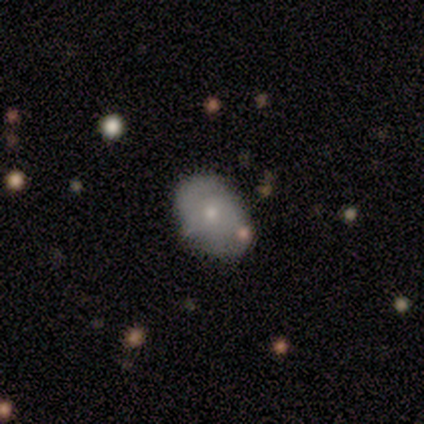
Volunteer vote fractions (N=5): Smooth or featured: smooth — 80% (featured or disk — 20%)
How rounded: in between — 75% (round — 25%)
Merging: none — 100%